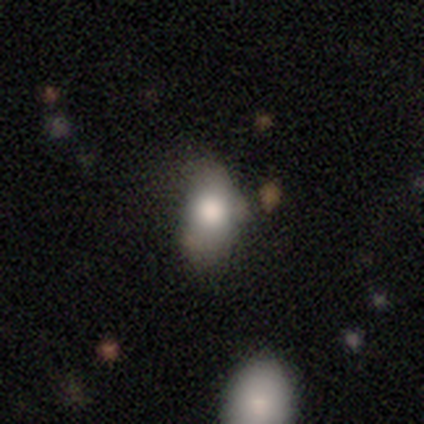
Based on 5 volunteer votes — A smooth galaxy with no disk features (100%) that is in between round and cigar-shaped (80%). Merging: minor disturbance (60%).